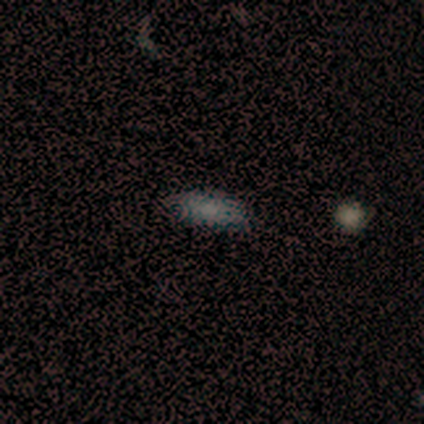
smooth_or_featured: smooth (p=0.76) [alt: star or artifact p=0.16]
how_rounded: in between (p=0.62) [alt: cigar-shaped p=0.38]
merging: none (p=0.91) [alt: minor disturbance p=0.06]